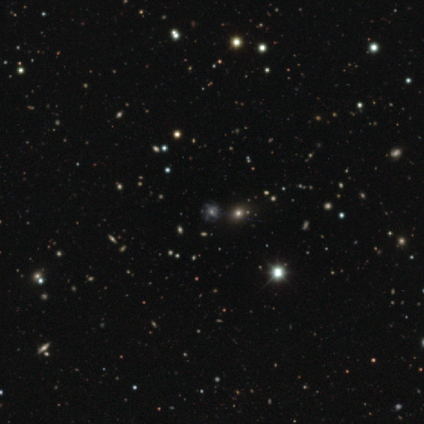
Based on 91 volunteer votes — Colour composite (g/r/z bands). It shows a star or artifact, not a galaxy (70%).